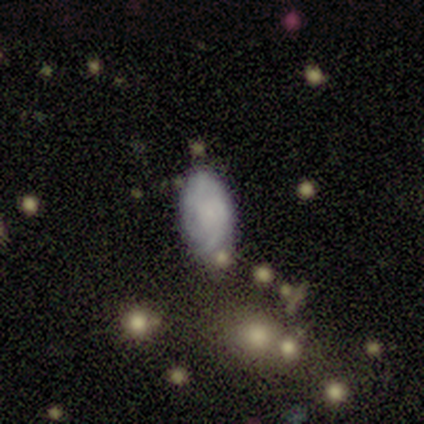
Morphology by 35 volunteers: smooth 49% (tied), featured or disk 49% (tied), star or artifact 3%. Down the decision tree: how rounded — in between (94%); merging — none (59%).